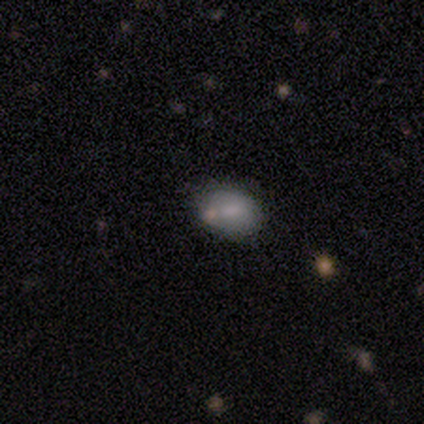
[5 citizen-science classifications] A smooth galaxy with no disk features (100%) that is round (60%). Merging: none (60%).